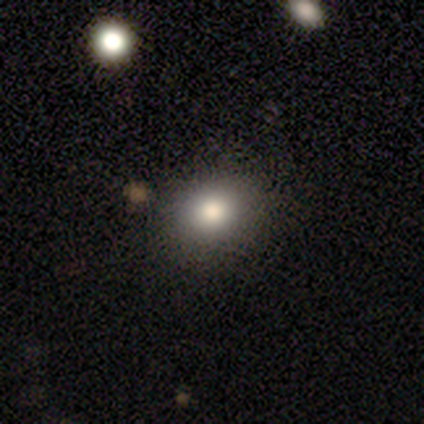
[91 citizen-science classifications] Smooth or featured? smooth (80%)
How rounded? round (67%)
Merging? none (90%)